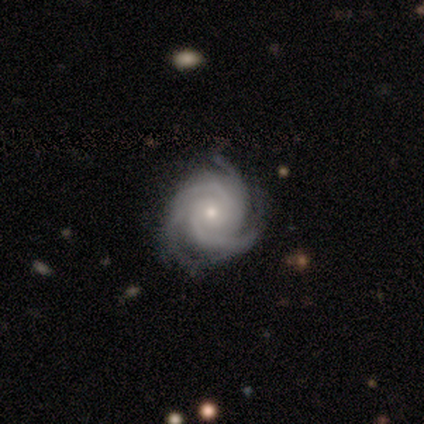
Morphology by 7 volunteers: Volunteers were most divided on "merging": none: 67%, minor disturbance: 33%, major disturbance: 0%, merger: 0%. More confident: edge-on disk — no (100%); bar — no (100%); spiral arms — yes (100%); bulge size — small (100%); spiral winding — tight (80%); spiral arm count — 3 (80%); smooth or featured — featured or disk (71%).